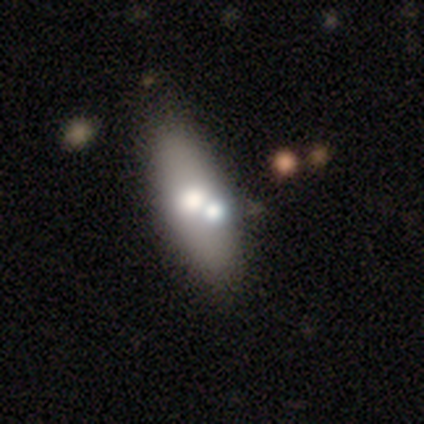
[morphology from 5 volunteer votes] type=smooth (60%); roundness=in between (100%); merging=none (100%).